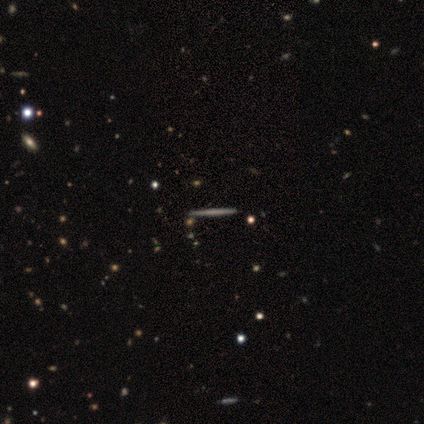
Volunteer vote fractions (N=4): A featured or disk galaxy (75%) viewed edge-on (100%) with no central bulge (100%).

Vote fractions:
- Smooth or featured? featured or disk: 75% / smooth: 25% / star or artifact: 0%
- Edge-on disk? yes: 100% / no: 0%
- Edge-on bulge? none: 100% / boxy: 0% / rounded: 0%
- Merging? none: 100% / minor disturbance: 0% / major disturbance: 0% / merger: 0%